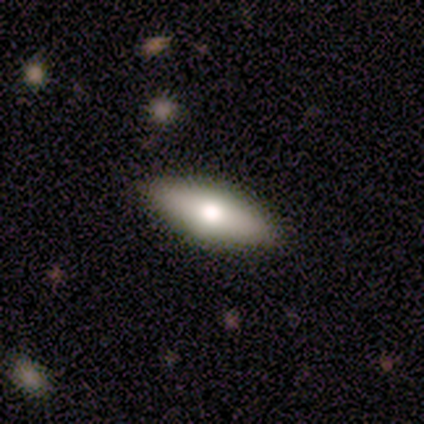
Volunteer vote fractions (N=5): Smooth or featured: smooth — 60% (featured or disk — 40%)
How rounded: in between — 67% (cigar-shaped — 33%)
Merging: none — 80% (minor disturbance — 20%)